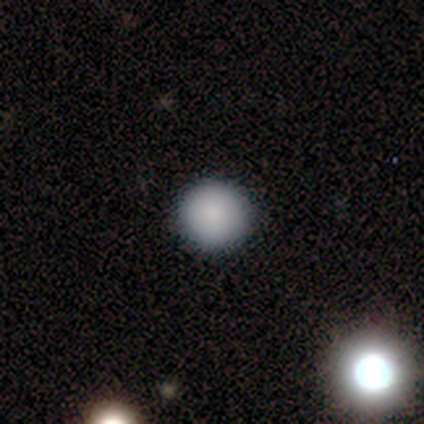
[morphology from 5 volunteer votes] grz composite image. It shows a smooth galaxy with no disk features (100%) that is round (100%). Merging: none (100%).